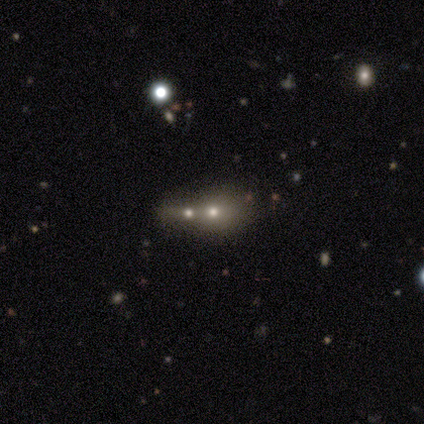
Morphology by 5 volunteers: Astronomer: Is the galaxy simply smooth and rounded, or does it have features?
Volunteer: smooth — 60% (runner-up: featured or disk, 40%).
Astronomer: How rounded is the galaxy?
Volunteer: round — 100%.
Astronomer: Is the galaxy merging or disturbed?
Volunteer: none — 40%, tied with merger at 40%.